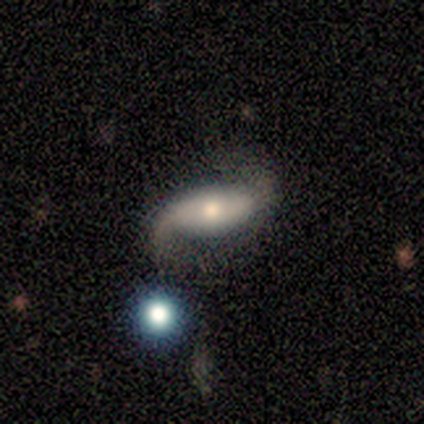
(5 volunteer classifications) smooth-or-featured: featured or disk: 80% | smooth: 20% | star or artifact: 0%
  disk-edge-on: no: 100% | yes: 0%
    bar: weak: 50% | strong: 25% | no: 25%
    has-spiral-arms: yes: 100% | no: 0%
      spiral-winding: loose: 100% | tight: 0% | medium: 0%
      spiral-arm-count: 2: 75% | can't tell: 25% | 1: 0% | 3: 0% | 4: 0% | more than 4: 0%
    bulge-size: moderate: 75% | small: 25% | dominant: 0% | large: 0% | none: 0%
  merging: none: 60% | minor disturbance: 40% | major disturbance: 0% | merger: 0%